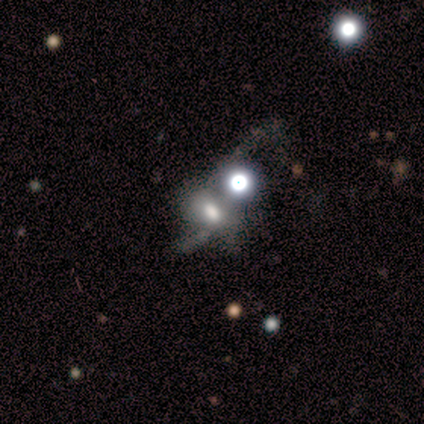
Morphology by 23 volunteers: smooth-or-featured: star or artifact: 39% | smooth: 35% | featured or disk: 26%